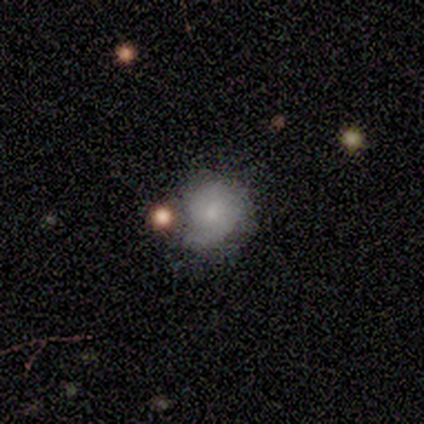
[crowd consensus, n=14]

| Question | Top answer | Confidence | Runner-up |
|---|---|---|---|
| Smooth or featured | smooth | 64% | featured or disk (36%) |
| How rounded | round | 67% | in between (33%) |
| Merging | minor disturbance | 57% | none (21%) |